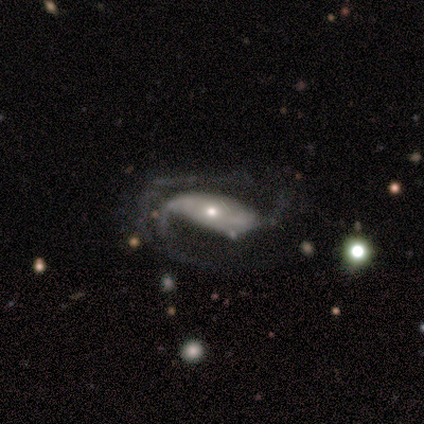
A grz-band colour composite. It shows a featured or disk galaxy (75%) with no bar (100%), 2 (100%) loose (100%) spiral arms (100%) and a dominant central bulge (50%, tied with moderate). Merging: major disturbance (50%).